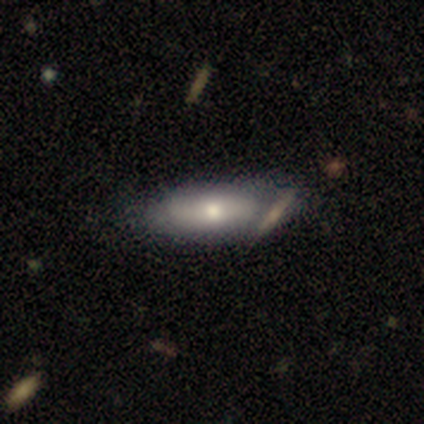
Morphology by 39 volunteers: Smooth or featured? 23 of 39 (59%) said smooth. How rounded? 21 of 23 (91%) said in between. Merging? 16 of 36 (44%) said none.